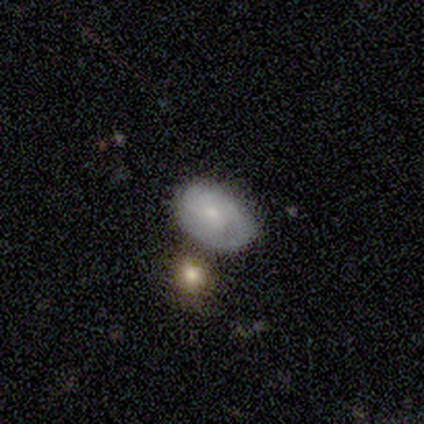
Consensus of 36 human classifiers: smooth 44%, featured or disk 42%, star or artifact 14%. Down the decision tree: how rounded — in between (81%); merging — none (65%).